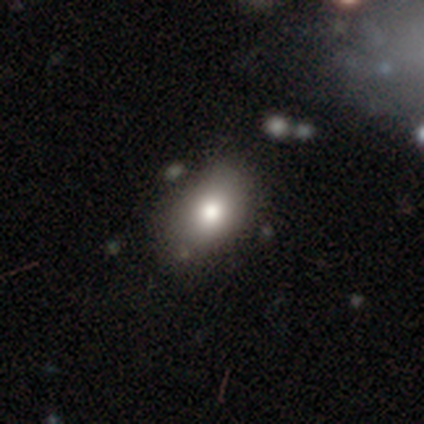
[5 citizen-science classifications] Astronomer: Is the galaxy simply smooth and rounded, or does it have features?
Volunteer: smooth — 60% (runner-up: star or artifact, 40%).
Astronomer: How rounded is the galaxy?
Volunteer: in between — 100%.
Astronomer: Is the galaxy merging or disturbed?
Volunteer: none — 67%.